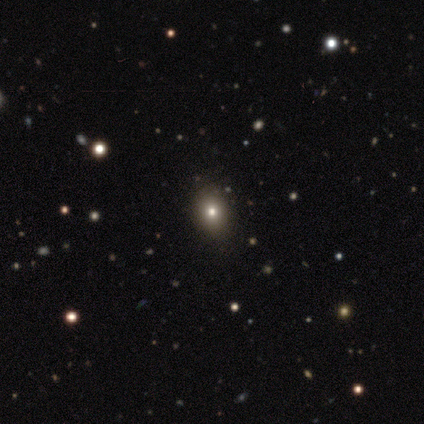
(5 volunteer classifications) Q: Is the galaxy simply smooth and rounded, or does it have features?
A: star or artifact — 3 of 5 (60%).